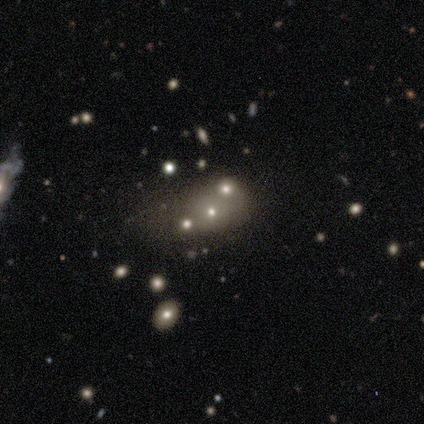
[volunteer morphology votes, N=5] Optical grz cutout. It shows a star or artifact, not a galaxy (60%).